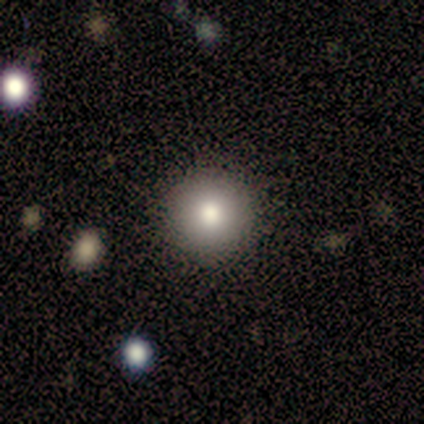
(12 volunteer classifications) Smooth or featured?
  - smooth: 67% *
  - featured or disk: 17%
  - star or artifact: 17%
How rounded?
  - round: 100% *
  - in between: 0%
  - cigar-shaped: 0%
Merging?
  - none: 100% *
  - minor disturbance: 0%
  - major disturbance: 0%
  - merger: 0%